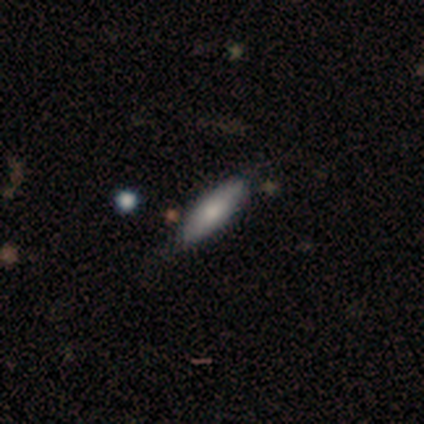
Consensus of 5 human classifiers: This is clearly a smooth galaxy (80%). How rounded: possibly in between (50%, tied with cigar-shaped). Merging: likely none (60%).